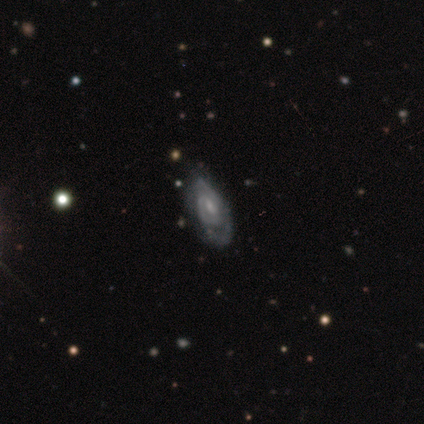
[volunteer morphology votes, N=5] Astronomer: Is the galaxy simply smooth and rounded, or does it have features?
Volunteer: featured or disk — 100%.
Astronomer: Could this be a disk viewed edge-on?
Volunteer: no — 100%.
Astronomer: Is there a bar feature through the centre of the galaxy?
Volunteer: no — 60% (runner-up: weak, 40%).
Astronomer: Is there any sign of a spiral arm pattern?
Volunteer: yes — 100%.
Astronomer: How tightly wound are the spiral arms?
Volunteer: medium — 60% (runner-up: tight, 40%).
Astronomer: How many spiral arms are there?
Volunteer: can't tell — 60% (runner-up: 2, 40%).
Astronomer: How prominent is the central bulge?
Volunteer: small — 60% (runner-up: moderate, 40%).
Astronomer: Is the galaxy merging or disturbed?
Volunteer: none — 100%.